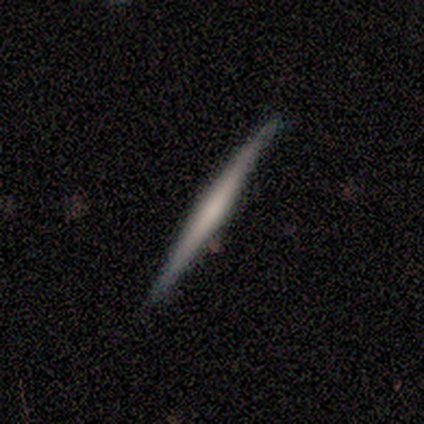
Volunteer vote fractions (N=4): Q: Smooth or featured?
A: smooth (50%); runner-up: featured or disk (25%)
Q: How rounded?
A: cigar-shaped (100%)
Q: Merging?
A: none (100%)